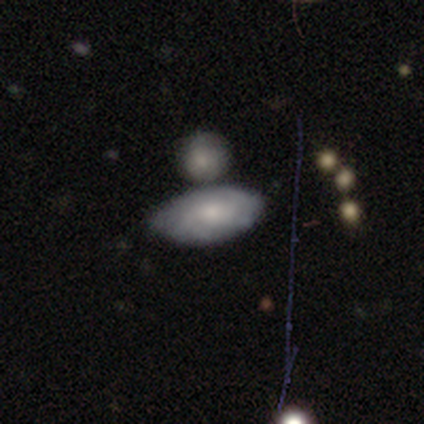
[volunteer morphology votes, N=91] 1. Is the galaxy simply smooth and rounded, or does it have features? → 53% smooth, 42% featured or disk, 5% star or artifact.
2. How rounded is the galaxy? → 94% in between, 4% round, 2% cigar-shaped.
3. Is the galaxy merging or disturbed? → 55% none, 24% merger, 17% minor disturbance, 3% major disturbance.